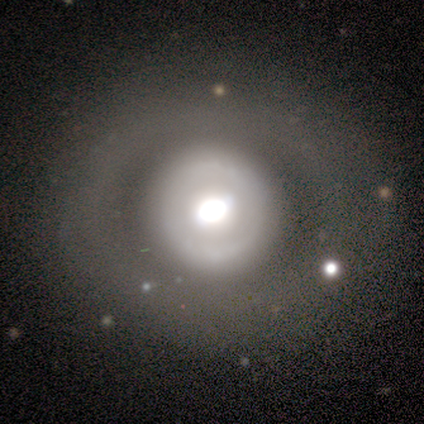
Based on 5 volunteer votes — This is clearly a featured or disk galaxy (100%). It is clearly not viewed edge-on (100%). Bar: clearly no (100%). Spiral arm pattern: likely no (60%). Central bulge: marginally dominant (40%, tied with large). Merging: clearly none (80%).